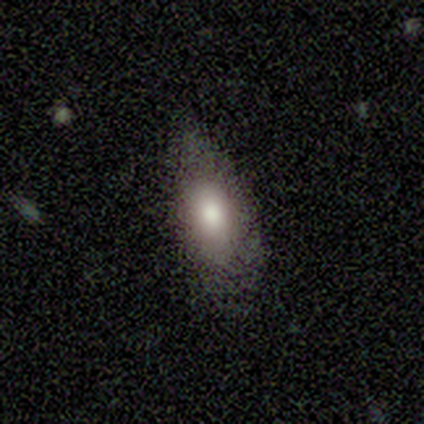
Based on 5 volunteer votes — A smooth galaxy with no disk features (60%) that is in between round and cigar-shaped (100%). Merging: minor disturbance (75%).